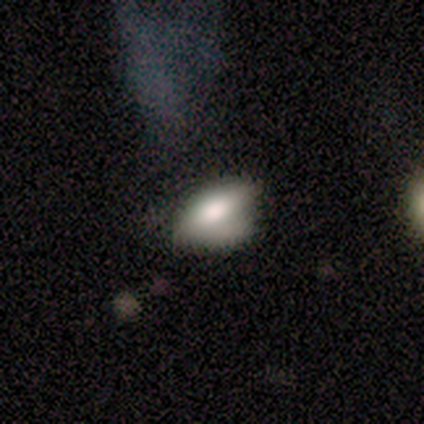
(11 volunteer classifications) Volunteers were most divided on "merging": minor disturbance: 50%, none: 30%, major disturbance: 10%, merger: 10%. More confident: how rounded — in between (100%); smooth or featured — smooth (64%).